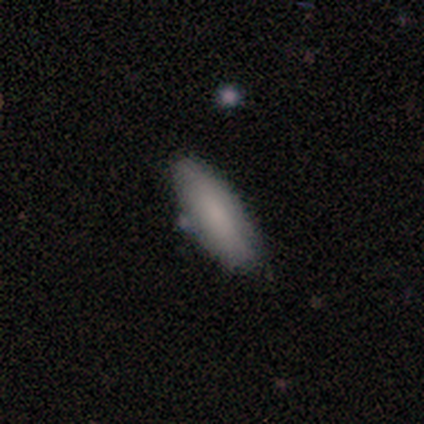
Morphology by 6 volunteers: Smooth or featured? smooth (100%)
How rounded? in between (67%)
Merging? none (83%)